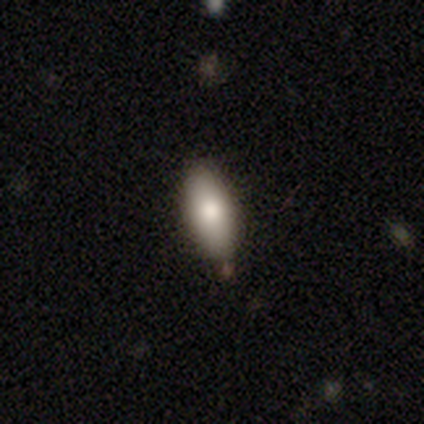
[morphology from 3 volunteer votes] smooth_or_featured: smooth (p=0.67) [alt: star or artifact p=0.33]
how_rounded: in between (p=1.00)
merging: none (p=1.00)